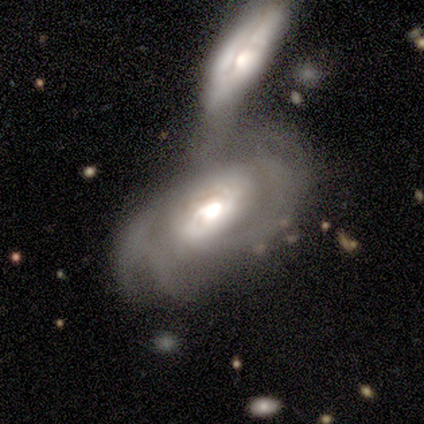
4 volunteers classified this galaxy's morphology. Smooth or featured?
  - featured or disk: 100% *
  - smooth: 0%
  - star or artifact: 0%
Edge-on disk?
  - no: 100% *
  - yes: 0%
Bar?
  - no: 50% *
  - strong: 25%
  - weak: 25%
Spiral arms?
  - yes: 50% * (tied)
  - no: 50% * (tied)
Spiral winding?
  - tight: 50% * (tied)
  - medium: 50% * (tied)
  - loose: 0%
Spiral arm count?
  - 3: 50% * (tied)
  - 4: 50% * (tied)
  - 1: 0%
  - 2: 0%
  - more than 4: 0%
  - can't tell: 0%
Bulge size?
  - moderate: 50% *
  - large: 25%
  - small: 25%
  - dominant: 0%
  - none: 0%
Merging?
  - merger: 75% *
  - major disturbance: 25%
  - none: 0%
  - minor disturbance: 0%